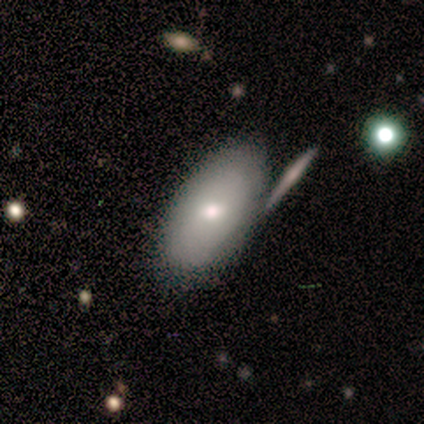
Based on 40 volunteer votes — This is likely a smooth galaxy (70%). How rounded: clearly in between (96%). Merging: likely none (69%).